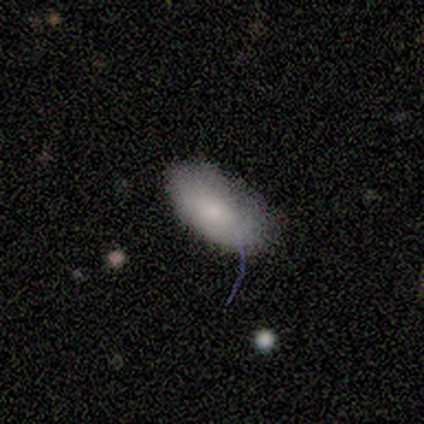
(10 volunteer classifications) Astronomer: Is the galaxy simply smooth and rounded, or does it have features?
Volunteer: smooth — 70%.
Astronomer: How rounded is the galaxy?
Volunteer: in between — 100%.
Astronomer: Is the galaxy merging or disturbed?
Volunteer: none — 60% (runner-up: minor disturbance, 40%).